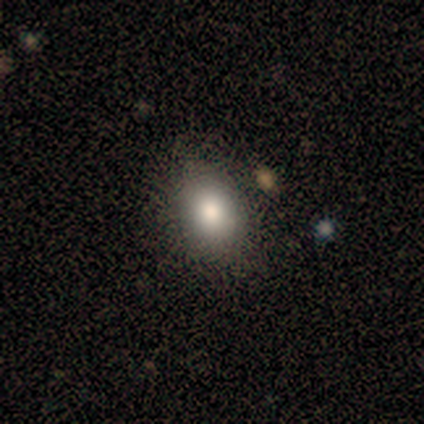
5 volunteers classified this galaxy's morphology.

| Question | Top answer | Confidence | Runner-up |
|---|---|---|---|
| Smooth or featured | smooth | 80% | featured or disk (20%) |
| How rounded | round | 50% | in between (25%) |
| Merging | none | 60% | minor disturbance (40%) |